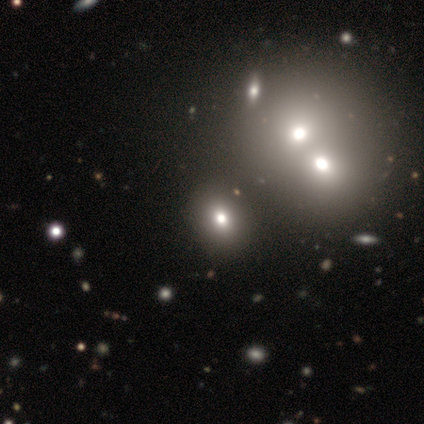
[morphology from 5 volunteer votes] smooth_or_featured: smooth (p=0.40) [tied with: featured or disk p=0.40]
how_rounded: round (p=0.50) [tied with: in between p=0.50]
merging: none (p=0.50) [tied with: merger p=0.50]